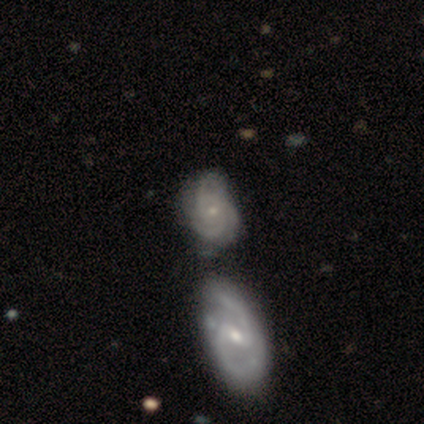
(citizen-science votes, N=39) This appears to be a featured or disk galaxy (74%) with no bar (74%), 3 (44%) tight (63%) spiral arms (100%) and a small central bulge (89%). Merging: none (52%).